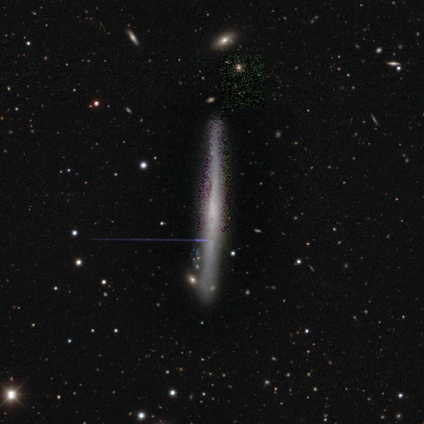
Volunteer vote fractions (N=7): This appears to be a featured or disk galaxy (100%) viewed edge-on (86%) with no central bulge (83%). Merging: none (71%).